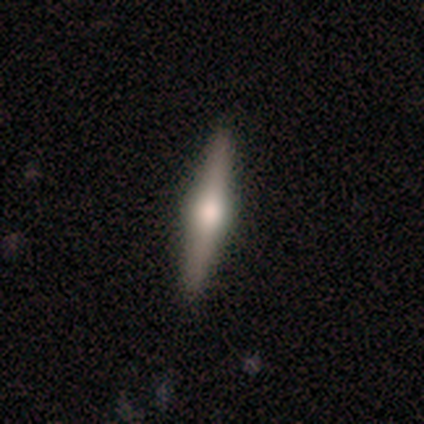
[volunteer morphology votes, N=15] Smooth or featured? 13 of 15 (87%) said featured or disk. Edge-on disk? 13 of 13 (100%) said yes. Edge-on bulge? 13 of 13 (100%) said rounded. Merging? 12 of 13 (92%) said none.